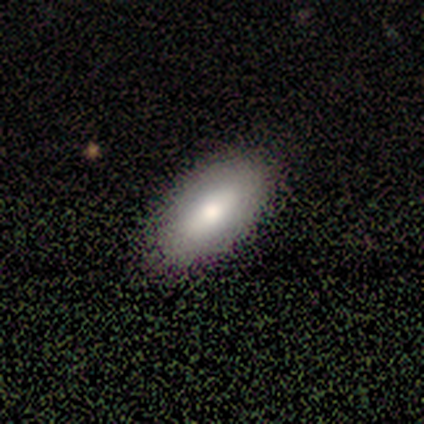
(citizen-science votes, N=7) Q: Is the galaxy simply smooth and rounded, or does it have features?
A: smooth — 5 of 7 (71%).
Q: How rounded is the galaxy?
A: in between — 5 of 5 (100%).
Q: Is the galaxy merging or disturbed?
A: none — 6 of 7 (86%).